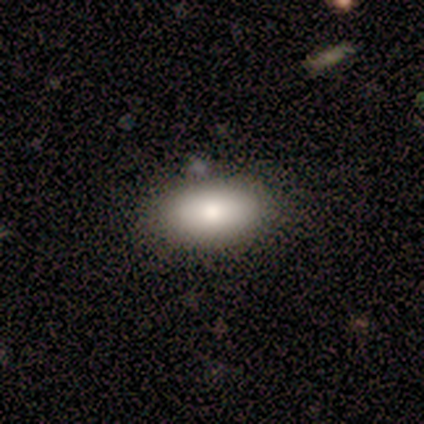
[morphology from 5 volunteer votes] Smooth or featured? 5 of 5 (100%) said smooth. How rounded? 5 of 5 (100%) said in between. Merging? 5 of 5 (100%) said none.